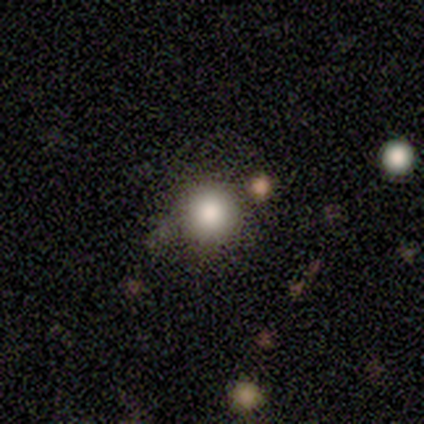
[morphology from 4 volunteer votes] Q: Smooth or featured?
A: smooth (75%); runner-up: featured or disk (25%)
Q: How rounded?
A: round (100%)
Q: Merging?
A: none (100%)